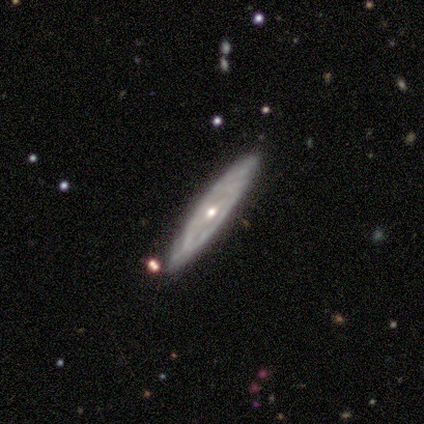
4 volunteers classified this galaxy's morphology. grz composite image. It shows a featured or disk galaxy (75%) with a strong bar (50%, tied with no), tight (100%) spiral arms (50%, tied with no) and a moderate central bulge (100%). Merging: none (100%).